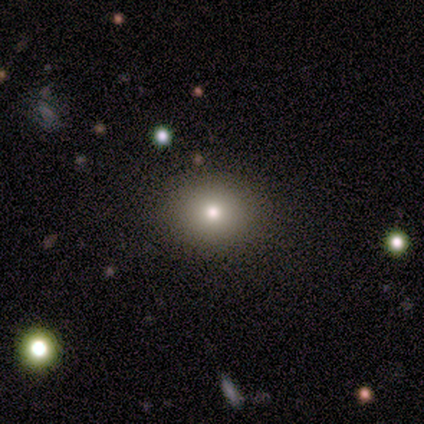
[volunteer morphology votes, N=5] Smooth or featured? 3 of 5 (60%) said smooth. How rounded? 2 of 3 (67%) said round. Merging? 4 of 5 (80%) said none.